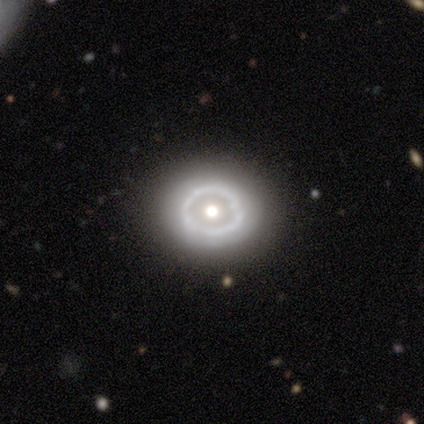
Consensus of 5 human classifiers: smooth-or-featured: smooth: 60% | featured or disk: 40% | star or artifact: 0%
  how-rounded: round: 67% | in between: 33% | cigar-shaped: 0%
  merging: none: 100% | minor disturbance: 0% | major disturbance: 0% | merger: 0%